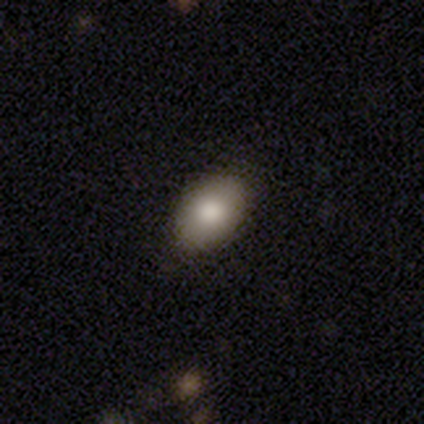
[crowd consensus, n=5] Smooth or featured: smooth — 100%
How rounded: in between — 80% (round — 20%)
Merging: none — 100%